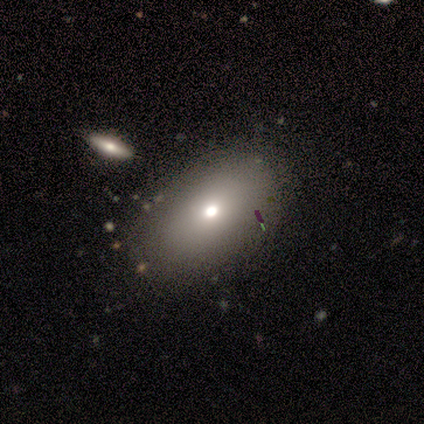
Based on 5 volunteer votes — Overall: smooth (80%). How rounded: in between (100%). Merging: none (100%).